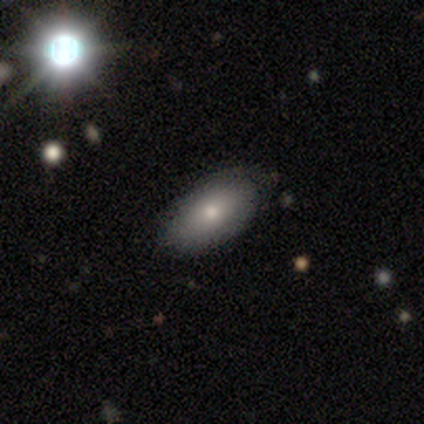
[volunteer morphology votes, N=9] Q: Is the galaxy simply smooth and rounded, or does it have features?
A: smooth — 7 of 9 (78%).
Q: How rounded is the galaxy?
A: in between — 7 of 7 (100%).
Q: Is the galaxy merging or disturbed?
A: none — 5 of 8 (62%).